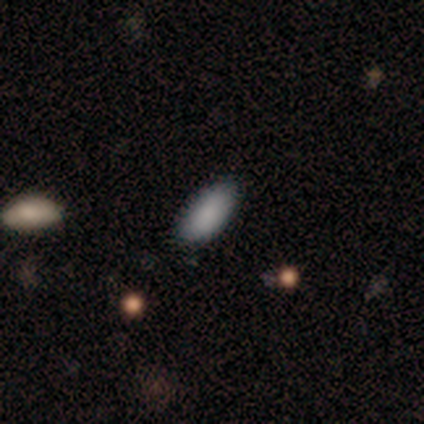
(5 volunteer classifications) smooth 100%, featured or disk 0%, star or artifact 0%. Down the decision tree: how rounded — in between (100%); merging — none (100%).